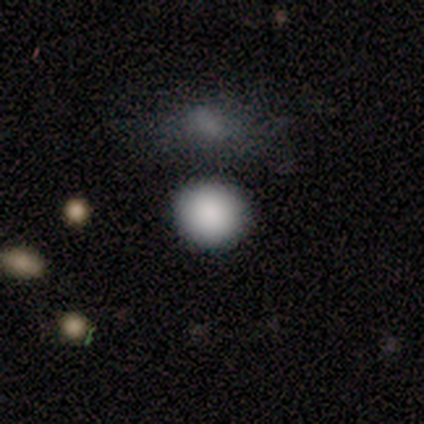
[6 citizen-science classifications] This is clearly a smooth galaxy (100%). How rounded: clearly round (100%). Merging: clearly none (83%).